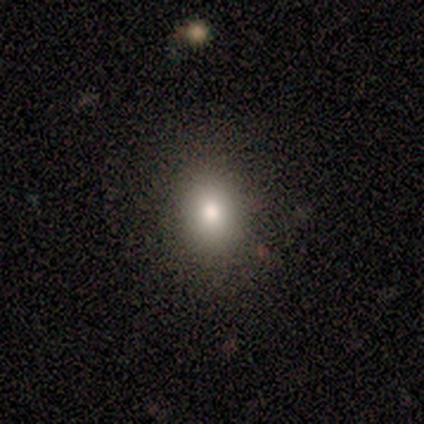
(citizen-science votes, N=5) Volunteers were most divided on "how rounded": in between: 75%, round: 25%, cigar-shaped: 0%. More confident: merging — none (100%); smooth or featured — smooth (80%).